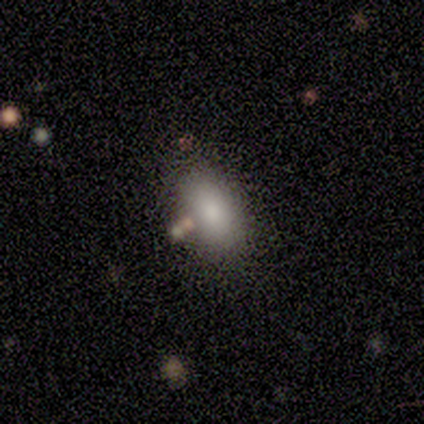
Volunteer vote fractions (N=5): A smooth galaxy with no disk features (80%) that is in between round and cigar-shaped (100%). Merging: none (75%).